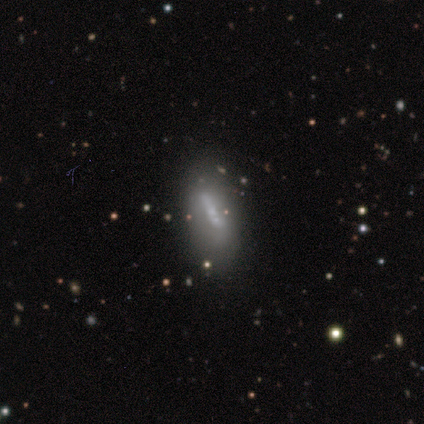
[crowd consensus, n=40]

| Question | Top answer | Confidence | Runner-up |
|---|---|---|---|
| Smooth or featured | featured or disk | 57% | smooth (30%) |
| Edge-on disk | no | 70% | yes (30%) |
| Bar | weak | 44% | strong (38%) |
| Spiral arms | no | 81% | yes (19%) |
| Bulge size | none | 44% | moderate (25%) |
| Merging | none | 49% | minor disturbance (40%) |